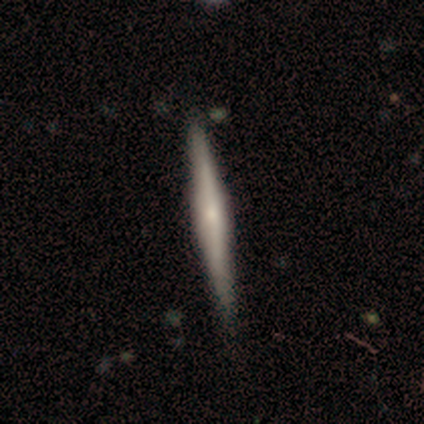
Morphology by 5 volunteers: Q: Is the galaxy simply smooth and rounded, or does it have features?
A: featured or disk — 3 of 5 (60%).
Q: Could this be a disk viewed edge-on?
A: yes — 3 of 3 (100%).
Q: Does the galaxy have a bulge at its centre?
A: rounded — 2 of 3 (67%).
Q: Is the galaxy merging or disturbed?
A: none — 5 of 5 (100%).